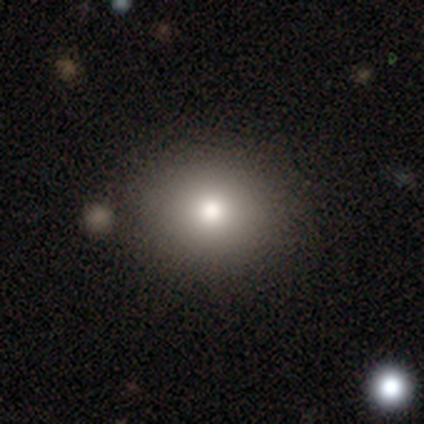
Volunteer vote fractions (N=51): A smooth galaxy with no disk features (71%) that is round (75%). Merging: none (83%).